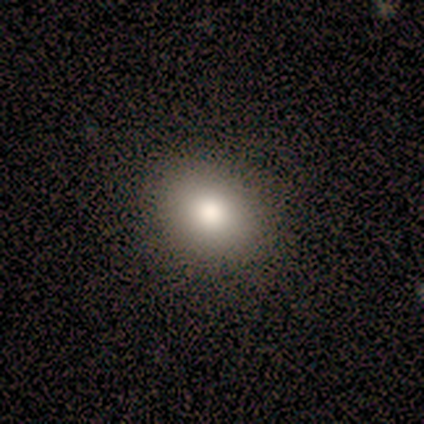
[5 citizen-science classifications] A smooth galaxy with no disk features (60%) that is round (67%).

Vote fractions:
- Smooth or featured? smooth: 60% / featured or disk: 20% / star or artifact: 20%
- How rounded? round: 67% / in between: 33% / cigar-shaped: 0%
- Merging? none: 75% / minor disturbance: 25% / major disturbance: 0% / merger: 0%